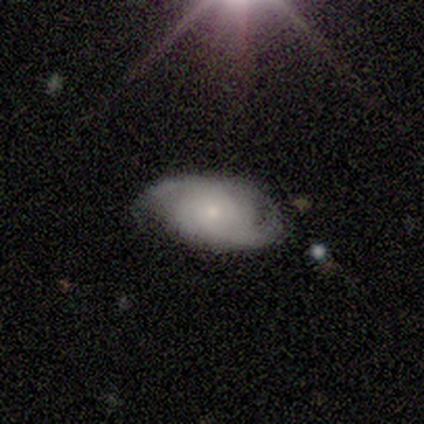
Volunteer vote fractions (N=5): This is likely a featured or disk galaxy (60%). It is clearly not viewed edge-on (100%). Bar: clearly no (100%). Spiral arm pattern: likely yes (67%). Spiral arm count: clearly 2 (100%). Spiral winding: possibly medium (50%, tied with loose). Central bulge: likely small (67%). Merging: likely none (60%).